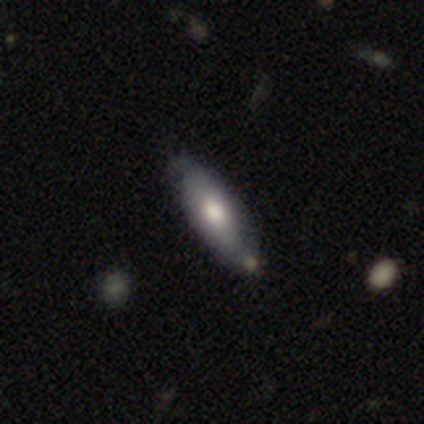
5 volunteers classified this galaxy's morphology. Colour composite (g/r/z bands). It shows a featured or disk galaxy (60%) with no bar (100%), no spiral arms (100%) and a moderate central bulge (100%). Merging: none (100%).